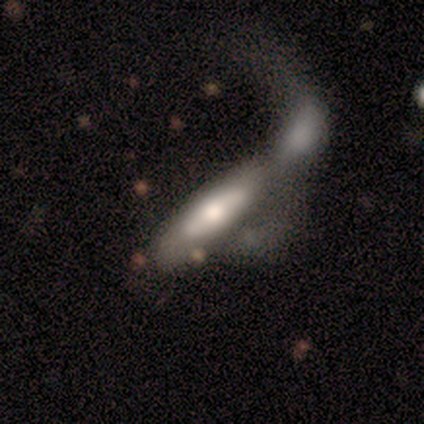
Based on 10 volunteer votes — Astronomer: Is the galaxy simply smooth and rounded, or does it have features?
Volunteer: featured or disk — 60% (runner-up: smooth, 40%).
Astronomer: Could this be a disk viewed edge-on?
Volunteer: no — 100%.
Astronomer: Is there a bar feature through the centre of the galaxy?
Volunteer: no — 100%.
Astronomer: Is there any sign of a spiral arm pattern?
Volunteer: no — 100%.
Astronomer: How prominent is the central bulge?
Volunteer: large — 33%, tied with moderate at 33%.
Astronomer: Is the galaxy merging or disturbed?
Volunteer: merger — 80%.